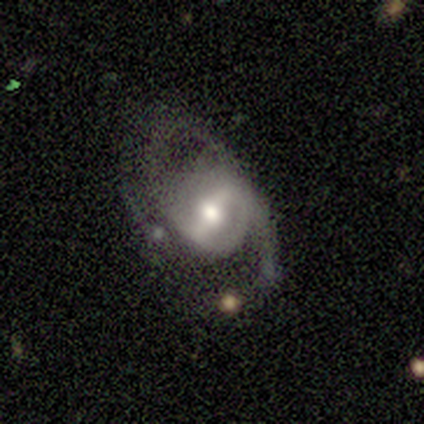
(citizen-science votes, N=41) Smooth or featured? 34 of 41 (83%) said featured or disk. Edge-on disk? 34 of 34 (100%) said no. Bar? 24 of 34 (71%) said strong. Spiral arms? 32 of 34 (94%) said yes. Spiral winding? 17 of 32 (53%) said medium. Spiral arm count? 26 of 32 (81%) said 2. Bulge size? 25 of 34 (74%) said moderate. Merging? 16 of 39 (41%) said none.